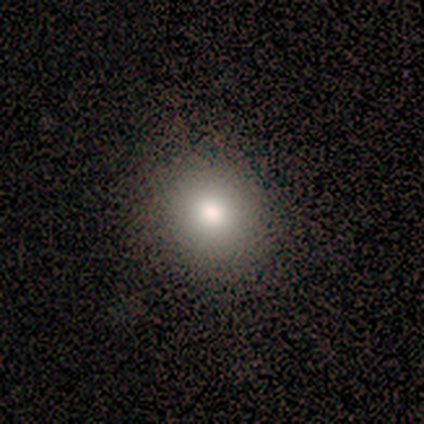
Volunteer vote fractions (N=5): Morphology: type=smooth (80%); roundness=round (75%); merging=none (100%).